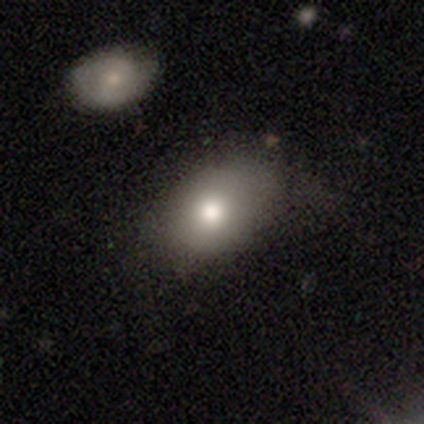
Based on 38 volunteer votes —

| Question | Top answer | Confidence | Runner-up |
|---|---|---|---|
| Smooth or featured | smooth | 79% | featured or disk (18%) |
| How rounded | in between | 73% | round (23%) |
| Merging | none | 51% | minor disturbance (35%) |